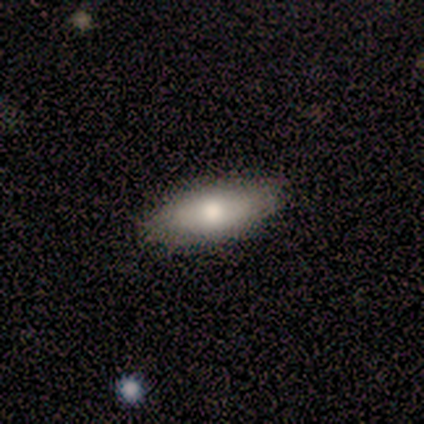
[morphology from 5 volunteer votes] Q: Smooth or featured?
A: smooth (100%)
Q: How rounded?
A: in between (80%); runner-up: round (20%)
Q: Merging?
A: none (80%); runner-up: major disturbance (20%)